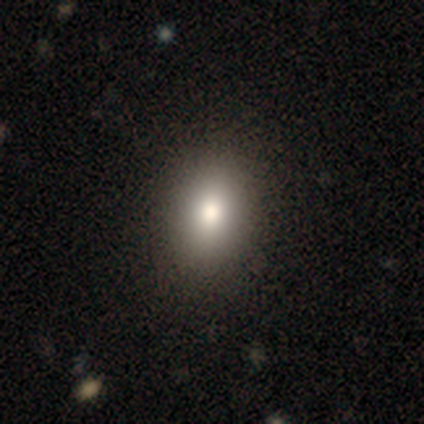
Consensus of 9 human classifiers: A smooth galaxy with no disk features (67%) that is in between round and cigar-shaped (83%).

Vote fractions:
- Smooth or featured? smooth: 67% / featured or disk: 22% / star or artifact: 11%
- How rounded? in between: 83% / round: 17% / cigar-shaped: 0%
- Merging? none: 62% / minor disturbance: 25% / major disturbance: 12% / merger: 0%